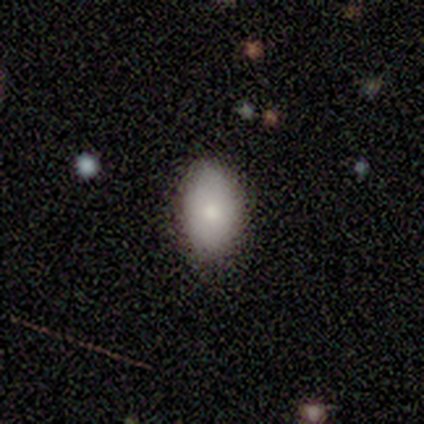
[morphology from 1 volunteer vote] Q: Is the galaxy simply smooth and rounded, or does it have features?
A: smooth — 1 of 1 (100%).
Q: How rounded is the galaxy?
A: in between — 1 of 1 (100%).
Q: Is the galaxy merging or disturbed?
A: none — 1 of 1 (100%).